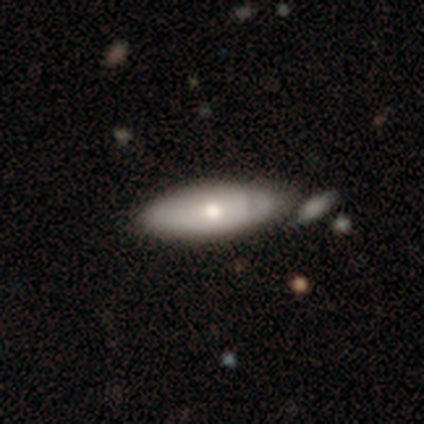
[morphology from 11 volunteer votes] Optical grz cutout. It shows a smooth galaxy with no disk features (55%) that is in between round and cigar-shaped (67%). Merging: minor disturbance (60%).